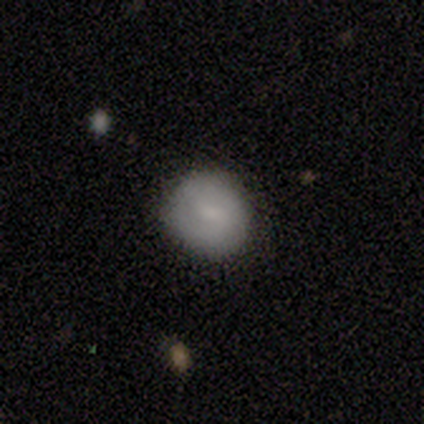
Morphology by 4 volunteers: This appears to be a smooth galaxy with no disk features (50%, tied with featured or disk) that is round (100%). Merging: none (100%).